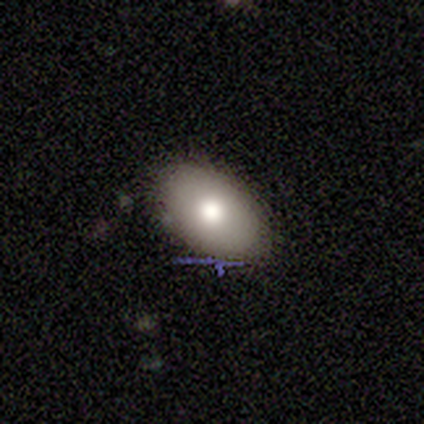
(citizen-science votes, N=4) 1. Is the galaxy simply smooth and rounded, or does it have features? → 75% smooth, 25% star or artifact, 0% featured or disk.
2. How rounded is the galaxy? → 100% in between, 0% round, 0% cigar-shaped.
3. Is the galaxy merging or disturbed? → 100% none, 0% minor disturbance, 0% major disturbance, 0% merger.